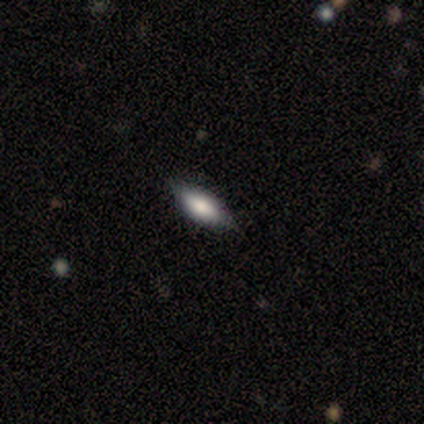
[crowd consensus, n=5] A smooth galaxy with no disk features (100%) that is in between round and cigar-shaped (60%). Merging: minor disturbance (60%).